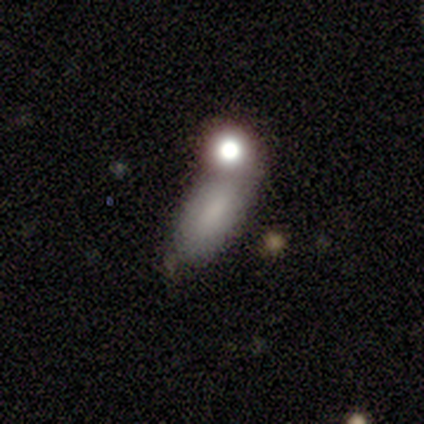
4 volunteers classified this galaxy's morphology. A smooth galaxy with no disk features (100%) that is in between round and cigar-shaped (75%).

Vote fractions:
- Smooth or featured? smooth: 100% / featured or disk: 0% / star or artifact: 0%
- How rounded? in between: 75% / cigar-shaped: 25% / round: 0%
- Merging? merger: 50% / none: 25% / minor disturbance: 25% / major disturbance: 0%